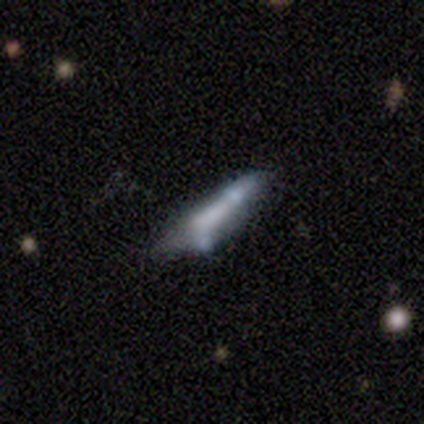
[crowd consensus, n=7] This appears to be a featured or disk galaxy (71%) with no bar (67%), no spiral arms (67%) and no central bulge (67%). Merging: merger (43%).